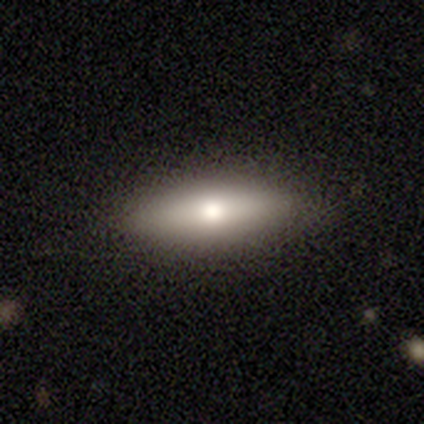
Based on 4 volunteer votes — A smooth galaxy with no disk features (50%, tied with featured or disk) that is in between round and cigar-shaped (50%, tied with cigar-shaped).

Vote fractions:
- Smooth or featured? smooth: 50% (tied) / featured or disk: 50% (tied) / star or artifact: 0%
- How rounded? in between: 50% (tied) / cigar-shaped: 50% (tied) / round: 0%
- Merging? none: 100% / minor disturbance: 0% / major disturbance: 0% / merger: 0%